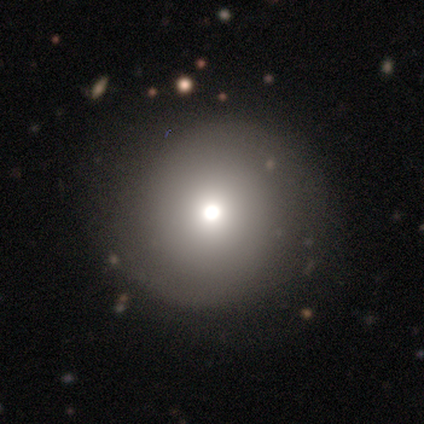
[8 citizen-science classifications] A smooth galaxy with no disk features (50%) that is round (100%). Merging: none (71%).